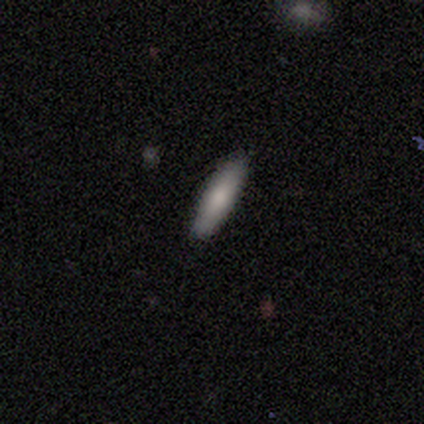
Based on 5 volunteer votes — smooth-or-featured: smooth: 80% | featured or disk: 20% | star or artifact: 0%
  how-rounded: cigar-shaped: 75% | in between: 25% | round: 0%
  merging: none: 80% | major disturbance: 20% | minor disturbance: 0% | merger: 0%